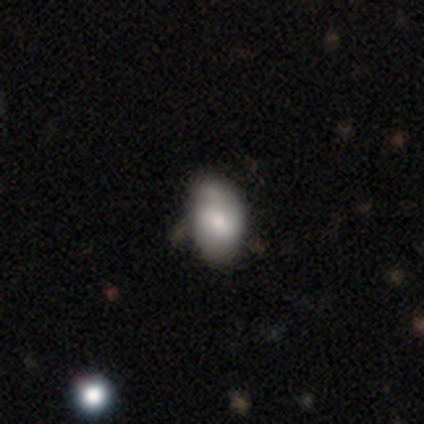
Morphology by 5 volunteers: smooth-or-featured: featured or disk: 60% | smooth: 40% | star or artifact: 0%
  disk-edge-on: no: 100% | yes: 0%
    bar: strong: 33% (tied) | weak: 33% (tied) | no: 33% (tied)
    has-spiral-arms: yes: 100% | no: 0%
      spiral-winding: loose: 67% | medium: 33% | tight: 0%
      spiral-arm-count: 2: 100% | 1: 0% | 3: 0% | 4: 0% | more than 4: 0% | can't tell: 0%
    bulge-size: small: 67% | moderate: 33% | dominant: 0% | large: 0% | none: 0%
  merging: none: 80% | minor disturbance: 20% | major disturbance: 0% | merger: 0%